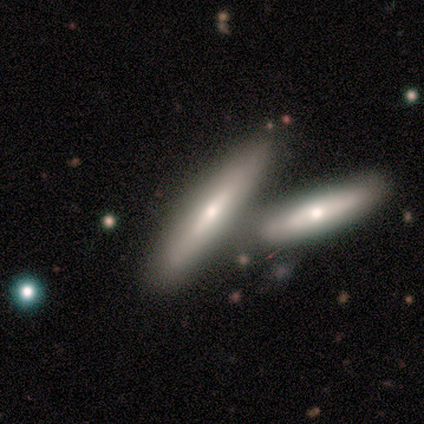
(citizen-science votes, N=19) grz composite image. It shows a smooth galaxy with no disk features (68%) that is cigar-shaped (85%). Merging: merger (47%).